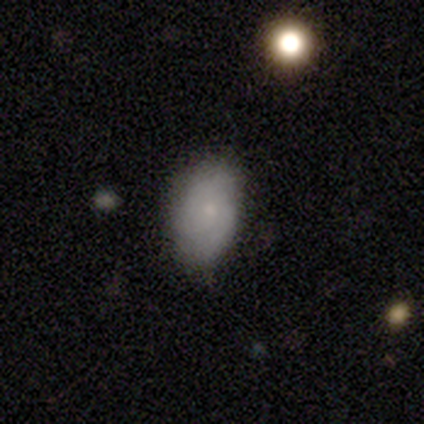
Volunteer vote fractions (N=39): This appears to be a smooth galaxy with no disk features (64%) that is in between round and cigar-shaped (92%). Merging: none (62%).